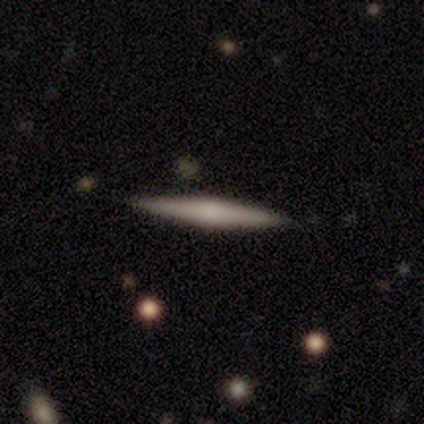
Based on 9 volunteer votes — Volunteers were most divided on "edge-on bulge": rounded: 60%, none: 40%, boxy: 0%. More confident: edge-on disk — yes (100%); smooth or featured — featured or disk (56%); merging — none (50%).